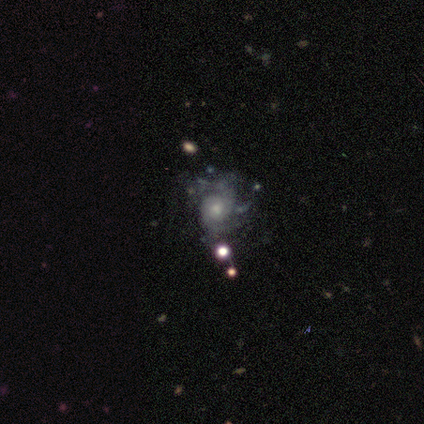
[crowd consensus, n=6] Smooth or featured? 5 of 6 (83%) said featured or disk. Edge-on disk? 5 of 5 (100%) said no. Bar? 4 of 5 (80%) said no. Spiral arms? 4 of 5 (80%) said yes. Spiral winding? 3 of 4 (75%) said tight. Spiral arm count? 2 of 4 (50%, tied with can't tell) said 2. Bulge size? 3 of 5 (60%) said moderate. Merging? 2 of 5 (40%, tied with minor disturbance) said none.